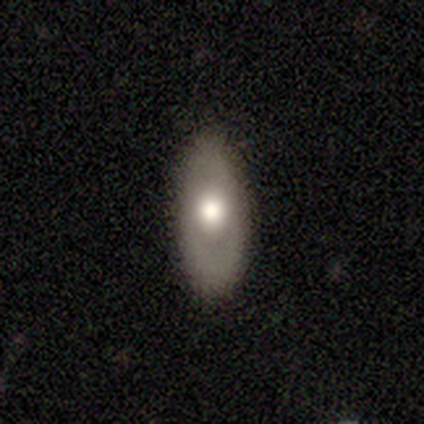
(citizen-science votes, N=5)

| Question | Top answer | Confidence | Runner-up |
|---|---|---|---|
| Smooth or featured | featured or disk | 60% | smooth (40%) |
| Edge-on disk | no | 67% | yes (33%) |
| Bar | no | 100% | — |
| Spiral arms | no | 100% | — |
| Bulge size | moderate | 100% | — |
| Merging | none | 80% | minor disturbance (20%) |